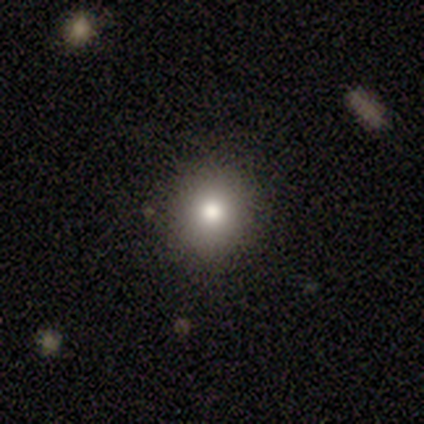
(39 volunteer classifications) Volunteers were most divided on "smooth or featured": smooth: 59%, featured or disk: 23%, star or artifact: 18%. More confident: merging — none (81%); how rounded — round (78%).